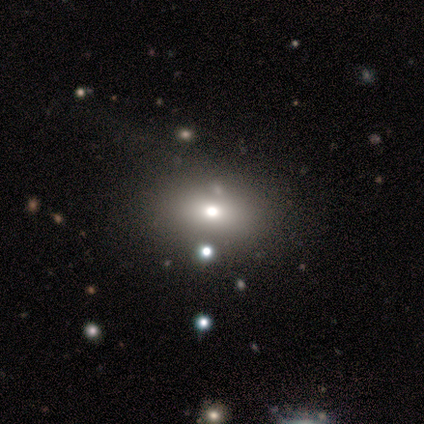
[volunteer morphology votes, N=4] Smooth or featured? 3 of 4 (75%) said smooth. How rounded? 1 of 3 (33%, tied with in between and cigar-shaped) said round. Merging? 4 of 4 (100%) said none.